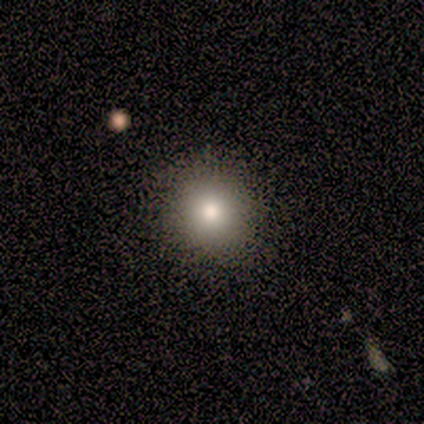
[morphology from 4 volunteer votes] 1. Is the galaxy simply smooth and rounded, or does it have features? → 75% smooth, 25% featured or disk, 0% star or artifact.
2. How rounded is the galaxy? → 100% round, 0% in between, 0% cigar-shaped.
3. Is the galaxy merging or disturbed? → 100% none, 0% minor disturbance, 0% major disturbance, 0% merger.